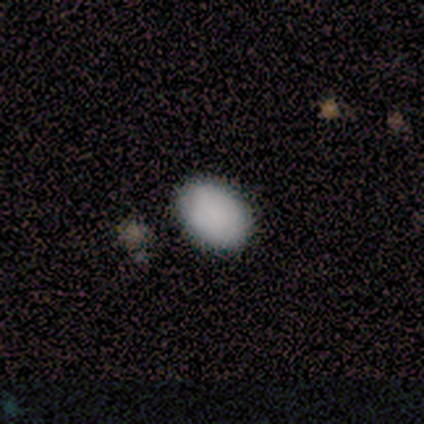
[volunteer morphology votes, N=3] Smooth or featured: smooth — 100%
How rounded: round — 67% (in between — 33%)
Merging: none — 100%